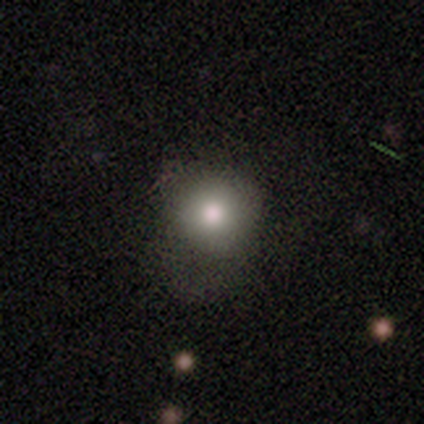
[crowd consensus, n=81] Smooth or featured? smooth (86%)
How rounded? round (96%)
Merging? none (27%)